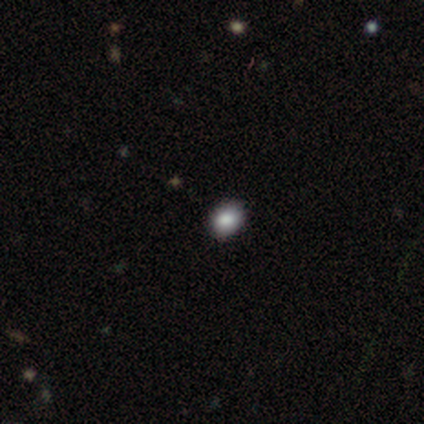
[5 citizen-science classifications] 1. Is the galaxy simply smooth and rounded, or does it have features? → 80% smooth, 20% featured or disk, 0% star or artifact.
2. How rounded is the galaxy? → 100% round, 0% in between, 0% cigar-shaped.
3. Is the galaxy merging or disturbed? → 80% none, 20% major disturbance, 0% minor disturbance, 0% merger.